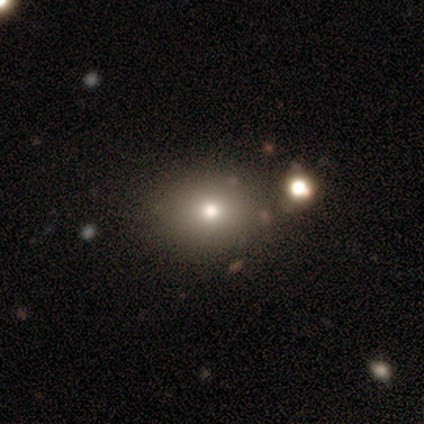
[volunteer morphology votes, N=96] smooth-or-featured: smooth: 56% | star or artifact: 28% | featured or disk: 16%
  how-rounded: round: 61% | in between: 39% | cigar-shaped: 0%
  merging: none: 74% | minor disturbance: 16% | merger: 10% | major disturbance: 0%